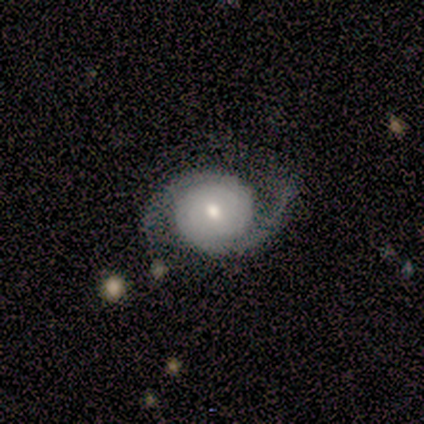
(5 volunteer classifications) A featured or disk galaxy (60%) with no bar (100%), 2 (100%) medium (100%) spiral arms (100%) and a small central bulge (67%).

Vote fractions:
- Smooth or featured? featured or disk: 60% / smooth: 40% / star or artifact: 0%
- Edge-on disk? no: 100% / yes: 0%
- Bar? no: 100% / strong: 0% / weak: 0%
- Spiral arms? yes: 100% / no: 0%
- Spiral winding? medium: 100% / tight: 0% / loose: 0%
- Spiral arm count? 2: 100% / 1: 0% / 3: 0% / 4: 0% / more than 4: 0% / can't tell: 0%
- Bulge size? small: 67% / moderate: 33% / dominant: 0% / large: 0% / none: 0%
- Merging? none: 40% (tied) / minor disturbance: 40% (tied) / merger: 20% / major disturbance: 0%